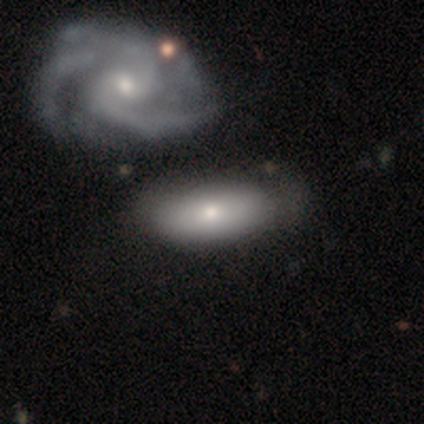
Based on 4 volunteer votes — A smooth galaxy with no disk features (75%) that is in between round and cigar-shaped (67%).

Vote fractions:
- Smooth or featured? smooth: 75% / featured or disk: 25% / star or artifact: 0%
- How rounded? in between: 67% / round: 33% / cigar-shaped: 0%
- Merging? none: 50% (tied) / merger: 50% (tied) / minor disturbance: 0% / major disturbance: 0%